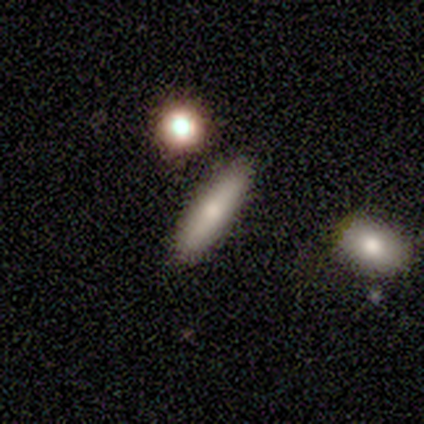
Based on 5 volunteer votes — smooth_or_featured: smooth (p=0.60) [alt: featured or disk p=0.40]
how_rounded: cigar-shaped (p=0.67) [alt: in between p=0.33]
merging: none (p=1.00)